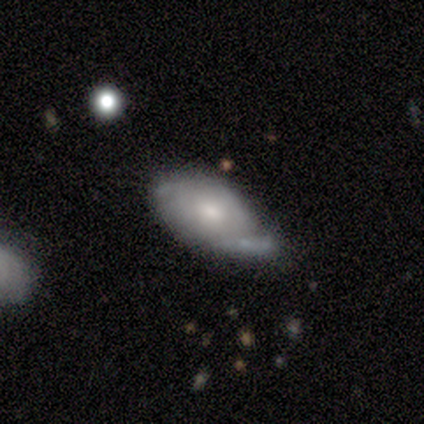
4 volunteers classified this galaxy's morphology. Smooth or featured? 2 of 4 (50%, tied with featured or disk) said smooth. How rounded? 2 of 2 (100%) said in between. Merging? 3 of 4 (75%) said minor disturbance.